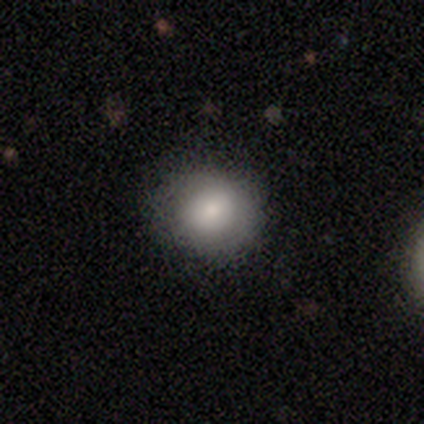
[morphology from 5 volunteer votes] type=smooth (80%); roundness=round (100%); merging=none (80%).